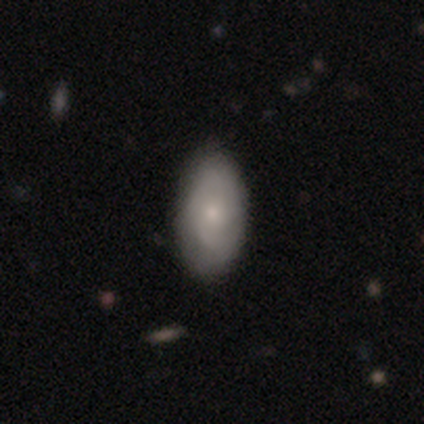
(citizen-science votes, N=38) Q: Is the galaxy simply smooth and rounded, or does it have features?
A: smooth — 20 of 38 (53%).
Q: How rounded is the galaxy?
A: in between — 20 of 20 (100%).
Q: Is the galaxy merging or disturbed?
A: none — 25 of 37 (68%).